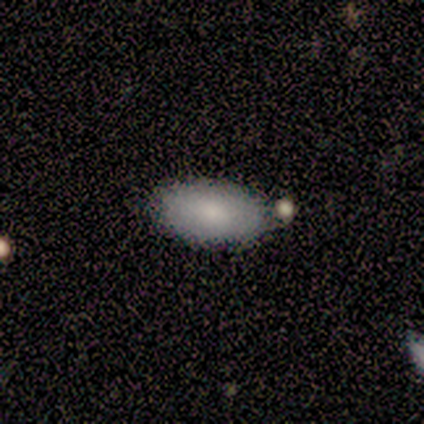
smooth-or-featured: smooth: 50% | featured or disk: 25% | star or artifact: 25%
  how-rounded: in between: 100% | round: 0% | cigar-shaped: 0%
  merging: minor disturbance: 67% | none: 33% | major disturbance: 0% | merger: 0%